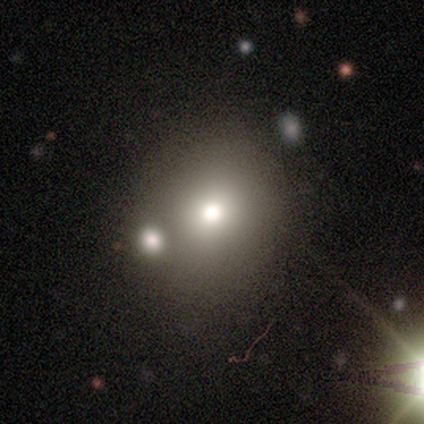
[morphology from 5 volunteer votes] smooth 60%, featured or disk 20%, star or artifact 20%. Down the decision tree: how rounded — round (100%); merging — none (100%).